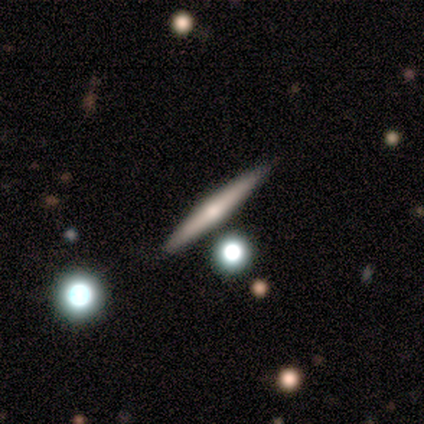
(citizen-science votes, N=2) This appears to be a smooth galaxy with no disk features (50%, tied with featured or disk) that is cigar-shaped (100%). Merging: none (100%).